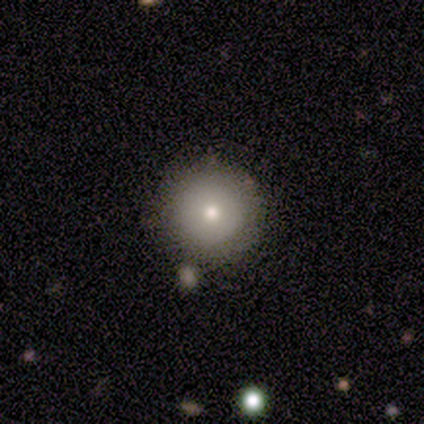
Volunteers were most divided on "merging": none: 75%, merger: 17%, minor disturbance: 8%, major disturbance: 0%. More confident: how rounded — round (91%); smooth or featured — smooth (85%).